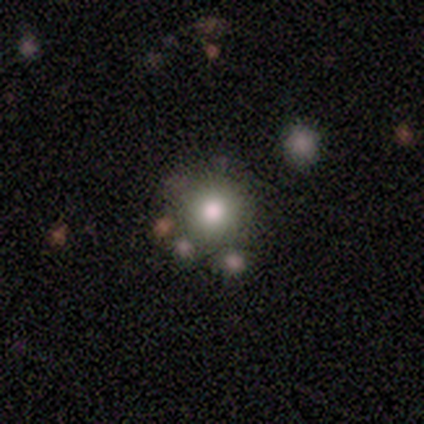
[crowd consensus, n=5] smooth 100%, featured or disk 0%, star or artifact 0%. Down the decision tree: how rounded — round (100%); merging — none (80%).